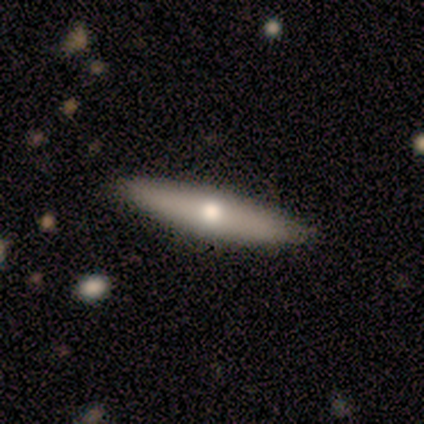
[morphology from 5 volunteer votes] Smooth or featured: featured or disk — 60% (smooth — 40%)
Edge-on disk: yes — 100%
Edge-on bulge: rounded — 100%
Merging: none — 80% (minor disturbance — 20%)